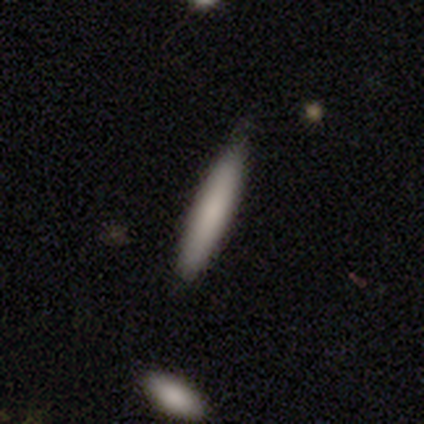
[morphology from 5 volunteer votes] type=smooth (80%); roundness=cigar-shaped (100%); merging=none (60%).